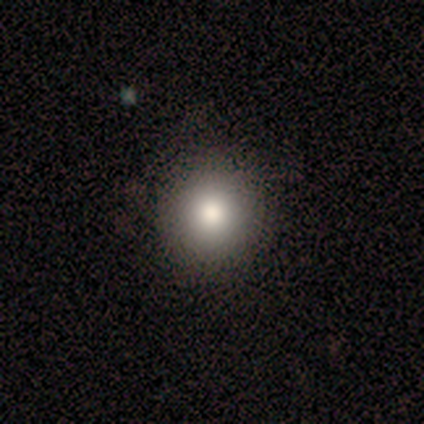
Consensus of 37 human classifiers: A smooth galaxy with no disk features (81%) that is round (93%). Merging: none (97%).